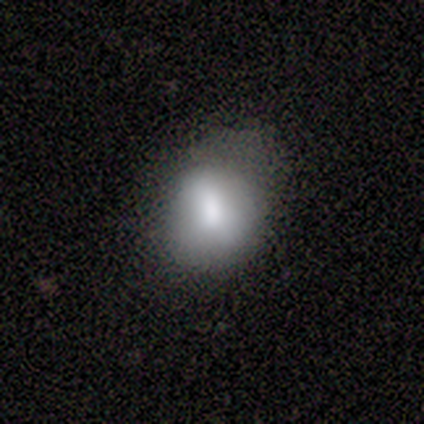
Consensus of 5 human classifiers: smooth 100%, featured or disk 0%, star or artifact 0%. Down the decision tree: how rounded — in between (60%); merging — none (60%).